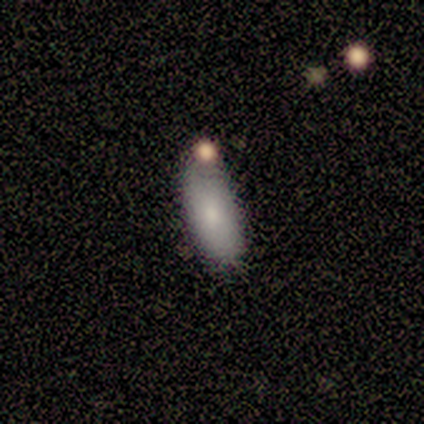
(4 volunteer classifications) smooth 75%, featured or disk 25%, star or artifact 0%. Down the decision tree: how rounded — in between (67%); merging — none (75%).